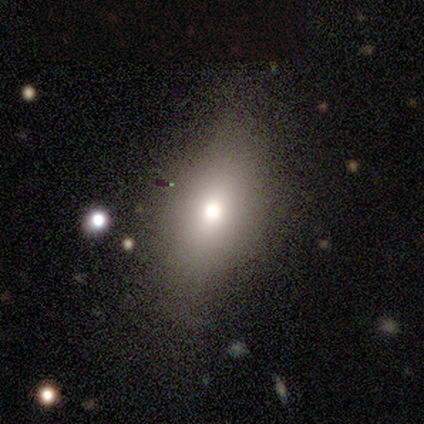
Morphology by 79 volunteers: type=smooth (72%); roundness=in between (84%); merging=none (37%).